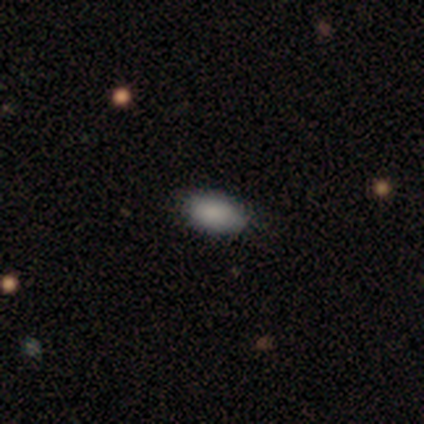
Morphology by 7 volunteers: A smooth galaxy with no disk features (100%) that is in between round and cigar-shaped (100%). Merging: none (86%).